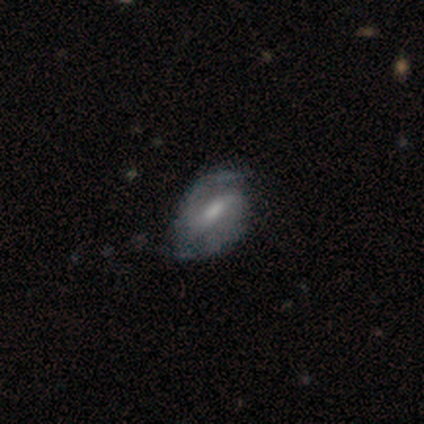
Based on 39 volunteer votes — Q: Smooth or featured?
A: featured or disk (82%); runner-up: smooth (13%)
Q: Edge-on disk?
A: no (97%); runner-up: yes (3%)
Q: Bar?
A: weak (61%); runner-up: strong (32%)
Q: Spiral arms?
A: yes (94%); runner-up: no (6%)
Q: Spiral winding?
A: medium (62%); runner-up: tight (31%)
Q: Spiral arm count?
A: 2 (86%); runner-up: can't tell (14%)
Q: Bulge size?
A: moderate (61%); runner-up: small (26%)
Q: Merging?
A: none (62%); runner-up: minor disturbance (32%)